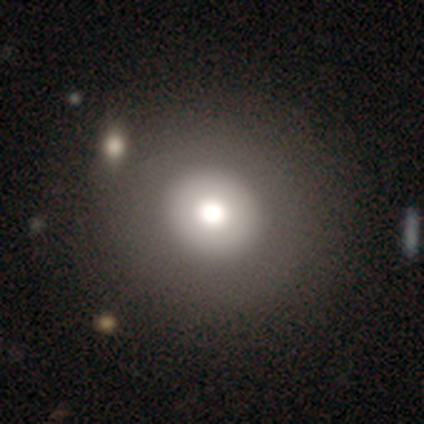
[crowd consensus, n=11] smooth 45%, featured or disk 36%, star or artifact 18%. Down the decision tree: how rounded — round (100%); merging — none (100%).